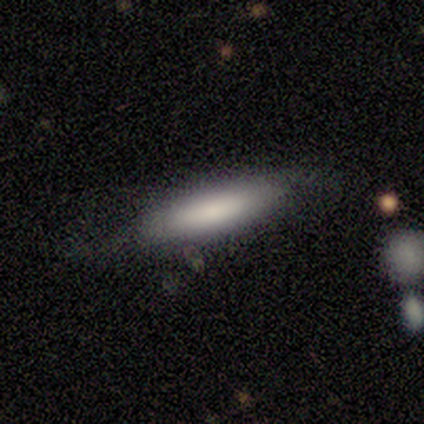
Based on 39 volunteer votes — This is likely a smooth galaxy (67%). How rounded: possibly in between (50%, tied with cigar-shaped). Merging: likely none (71%).